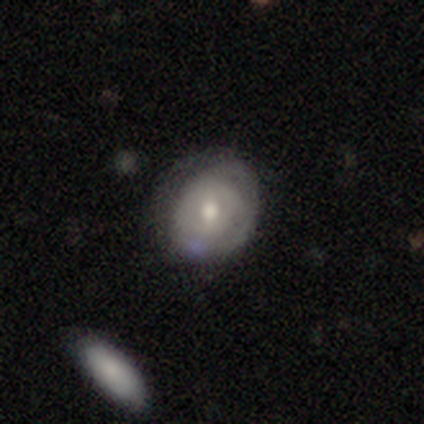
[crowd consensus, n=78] smooth-or-featured: featured or disk: 60% | smooth: 35% | star or artifact: 5%
  disk-edge-on: no: 96% | yes: 4%
    bar: weak: 51% | no: 44% | strong: 4%
    has-spiral-arms: yes: 56% | no: 44%
      spiral-winding: tight: 68% | medium: 28% | loose: 4%
      spiral-arm-count: can't tell: 72% | 2: 12% | 1: 8% | 3: 8% | 4: 0% | more than 4: 0%
    bulge-size: moderate: 62% | small: 20% | large: 13% | dominant: 2% | none: 2%
  merging: none: 27% | major disturbance: 12% | minor disturbance: 9% | merger: 4%